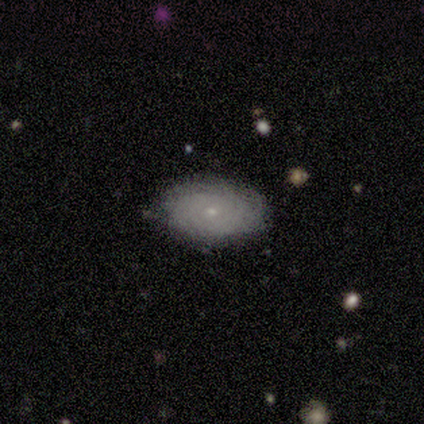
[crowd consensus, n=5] Morphology: type=featured or disk (80%); edge-on=no (100%); bar=no (100%); spiral arms=yes (75%); winding=tight (67%); arm count=4 (33%, tied with more than 4 and can't tell); bulge=small (75%); merging=none (60%).